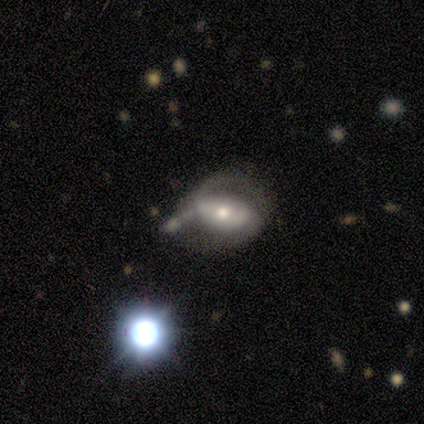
smooth-or-featured: featured or disk: 60% | smooth: 20% | star or artifact: 20%
  disk-edge-on: no: 100% | yes: 0%
    bar: no: 67% | weak: 33% | strong: 0%
    has-spiral-arms: no: 67% | yes: 33%
    bulge-size: moderate: 67% | small: 33% | dominant: 0% | large: 0% | none: 0%
  merging: minor disturbance: 75% | none: 25% | major disturbance: 0% | merger: 0%